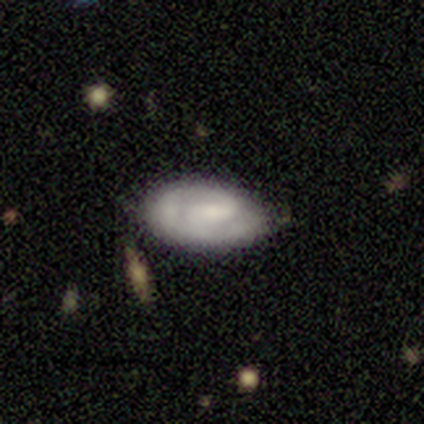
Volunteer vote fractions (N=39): Morphology: type=featured or disk (62%); edge-on=no (100%); bar=weak (46%, tied with no); spiral arms=yes (67%); winding=tight (50%); arm count=2 (62%); bulge=small (33%, tied with none); merging=none (68%).